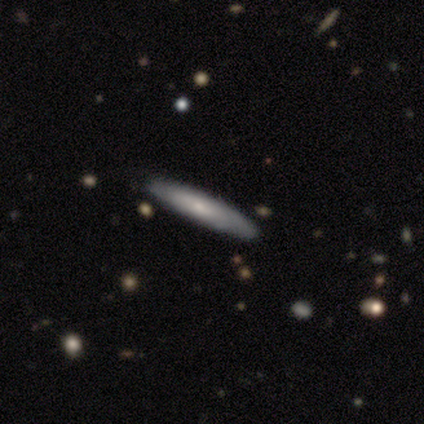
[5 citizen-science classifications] Smooth or featured? 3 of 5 (60%) said smooth. How rounded? 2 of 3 (67%) said cigar-shaped. Merging? 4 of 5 (80%) said none.